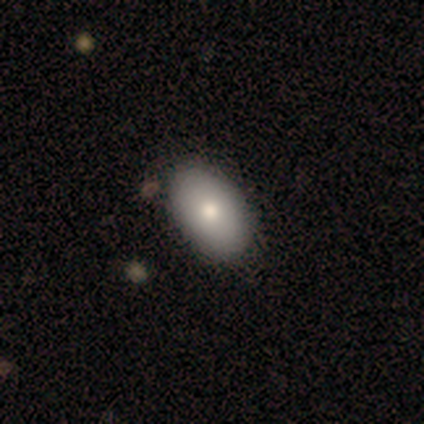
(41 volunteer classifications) Q: Smooth or featured?
A: smooth (78%); runner-up: featured or disk (20%)
Q: How rounded?
A: in between (94%); runner-up: round (6%)
Q: Merging?
A: none (65%); runner-up: minor disturbance (5%)